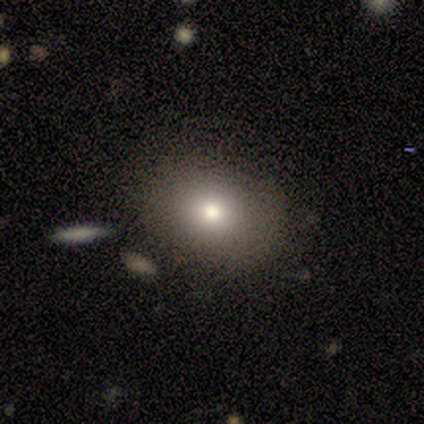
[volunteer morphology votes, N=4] smooth-or-featured: smooth: 75% | star or artifact: 25% | featured or disk: 0%
  how-rounded: round: 67% | in between: 33% | cigar-shaped: 0%
  merging: none: 100% | minor disturbance: 0% | major disturbance: 0% | merger: 0%